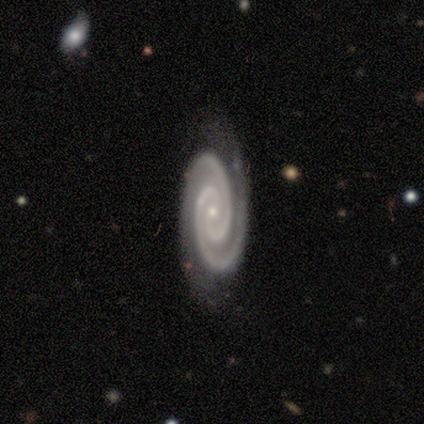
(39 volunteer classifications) smooth_or_featured: featured or disk (p=0.95) [alt: smooth p=0.03]
disk_edge_on: no (p=1.00)
bar: no (p=0.73) [alt: strong p=0.16]
has_spiral_arms: yes (p=1.00)
spiral_winding: tight (p=0.89) [alt: medium p=0.08]
spiral_arm_count: 2 (p=0.92) [alt: 3 p=0.08]
bulge_size: small (p=0.81) [alt: moderate p=0.19]
merging: none (p=0.95) [alt: minor disturbance p=0.05]